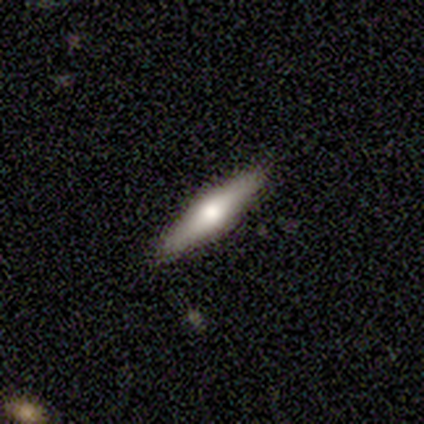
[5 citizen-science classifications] smooth-or-featured: featured or disk: 60% | smooth: 40% | star or artifact: 0%
  disk-edge-on: yes: 100% | no: 0%
    edge-on-bulge: rounded: 67% | none: 33% | boxy: 0%
  merging: none: 100% | minor disturbance: 0% | major disturbance: 0% | merger: 0%